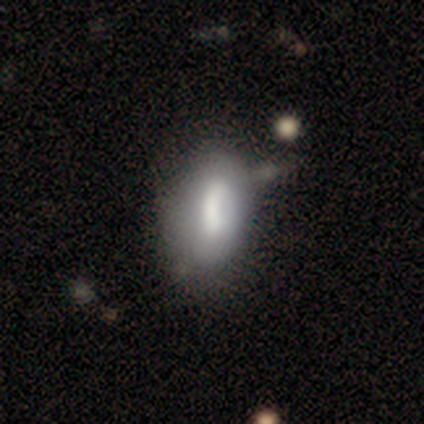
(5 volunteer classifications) Smooth or featured: smooth — 60% (featured or disk — 40%)
How rounded: in between — 67% (cigar-shaped — 33%)
Merging: none — 40% (tied with minor disturbance — 40%)